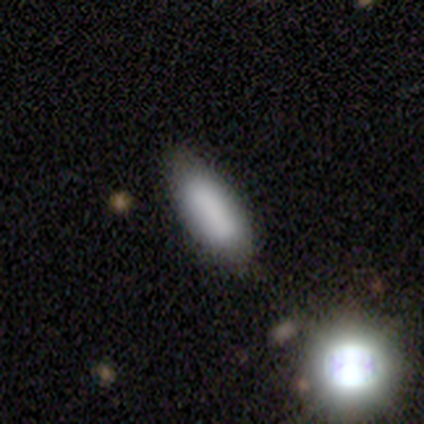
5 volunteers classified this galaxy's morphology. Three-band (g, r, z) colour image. It shows a smooth galaxy with no disk features (60%) that is in between round and cigar-shaped (100%). Merging: none (75%).